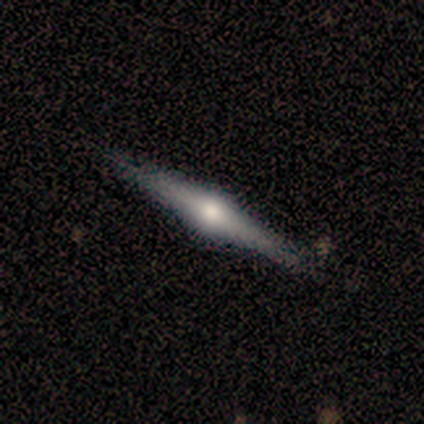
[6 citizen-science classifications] featured or disk 67%, smooth 17%, star or artifact 17%. Down the decision tree: edge-on disk — yes (100%); edge-on bulge — rounded (100%); merging — none (60%).